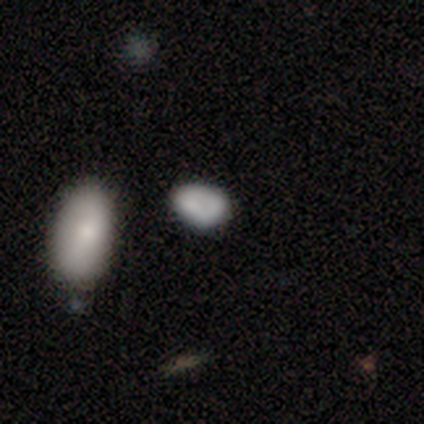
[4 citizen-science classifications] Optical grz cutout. It shows a smooth galaxy with no disk features (100%) that is in between round and cigar-shaped (100%). Merging: none (50%, tied with minor disturbance).